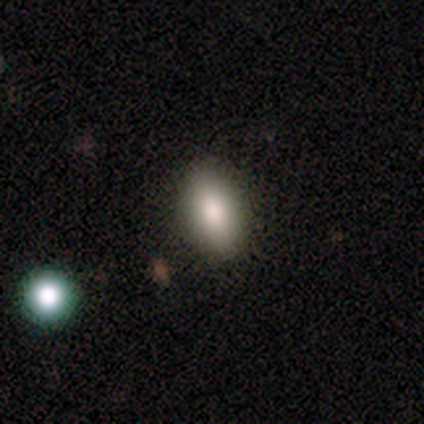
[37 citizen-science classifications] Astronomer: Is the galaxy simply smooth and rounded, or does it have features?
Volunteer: smooth — 81%.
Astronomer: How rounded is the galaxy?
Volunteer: in between — 93%.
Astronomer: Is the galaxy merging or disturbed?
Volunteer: none — 91%.